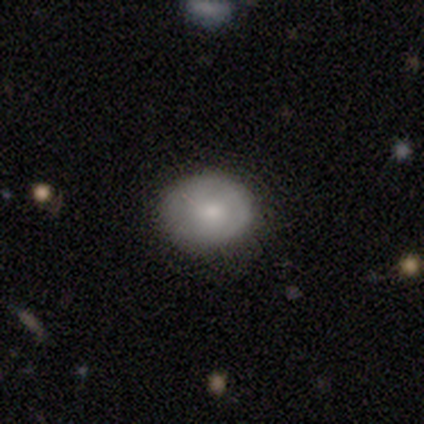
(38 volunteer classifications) smooth 74%, featured or disk 18%, star or artifact 8%. Down the decision tree: how rounded — round (50%, tied with in between); merging — none (89%).